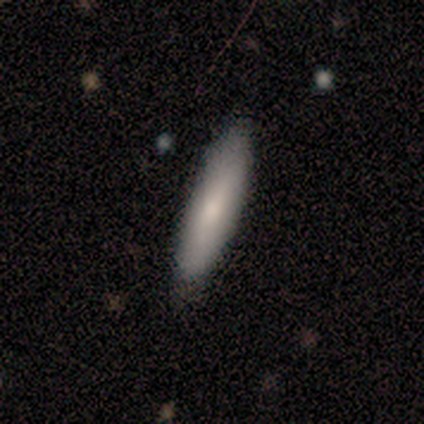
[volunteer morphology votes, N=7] type=smooth (71%); roundness=in between (60%); merging=none (100%).